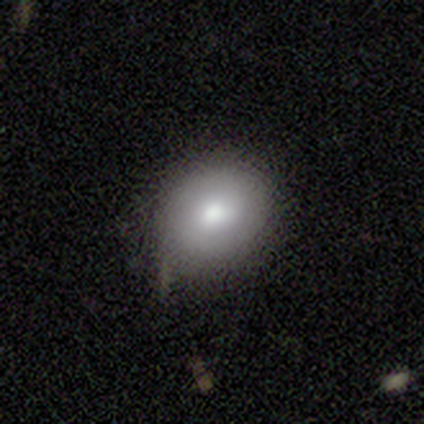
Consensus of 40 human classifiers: smooth 70%, featured or disk 22%, star or artifact 8%. Down the decision tree: how rounded — round (71%); merging — none (68%).